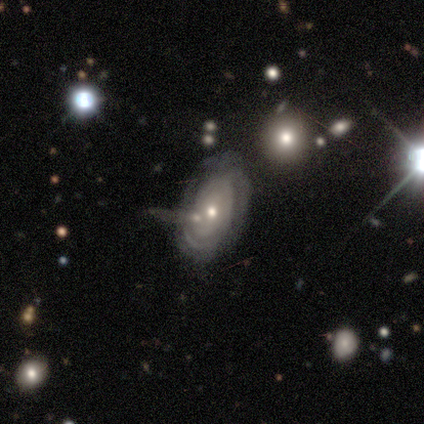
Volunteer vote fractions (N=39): Smooth or featured: featured or disk — 77% (smooth — 21%)
Edge-on disk: no — 90% (yes — 10%)
Bar: no — 78% (weak — 15%)
Spiral arms: yes — 70% (no — 30%)
Spiral winding: tight — 89% (medium — 5%)
Spiral arm count: can't tell — 42% (2 — 21%)
Bulge size: moderate — 48% (small — 44%)
Merging: none — 53% (minor disturbance — 24%)